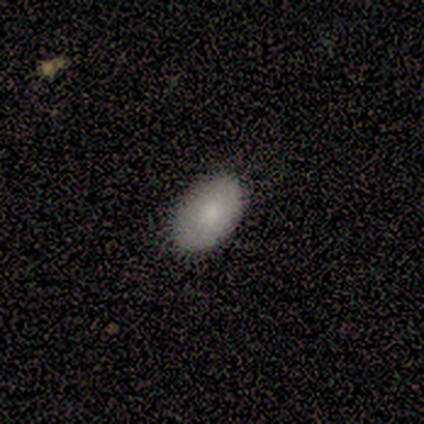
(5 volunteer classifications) A smooth galaxy with no disk features (60%) that is in between round and cigar-shaped (100%). Merging: none (80%).